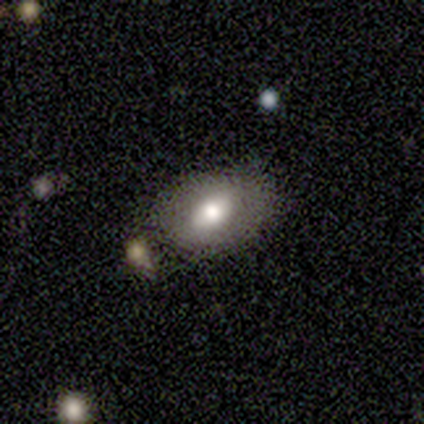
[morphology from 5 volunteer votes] Smooth or featured? 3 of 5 (60%) said smooth. How rounded? 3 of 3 (100%) said in between. Merging? 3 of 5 (60%) said none.